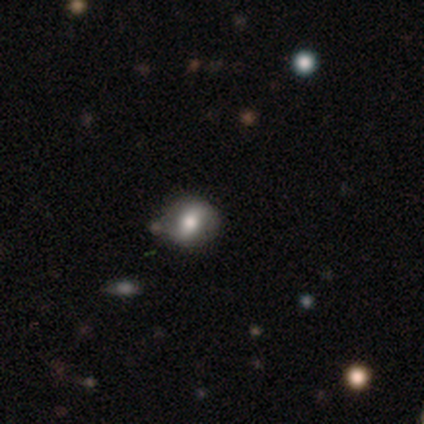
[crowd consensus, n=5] smooth 60%, featured or disk 20%, star or artifact 20%. Down the decision tree: how rounded — round (100%); merging — none (75%).